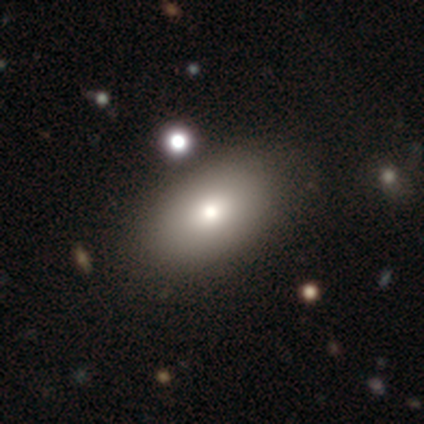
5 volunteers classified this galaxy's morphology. Q: Smooth or featured?
A: smooth (80%); runner-up: featured or disk (20%)
Q: How rounded?
A: in between (100%)
Q: Merging?
A: none (80%); runner-up: minor disturbance (20%)